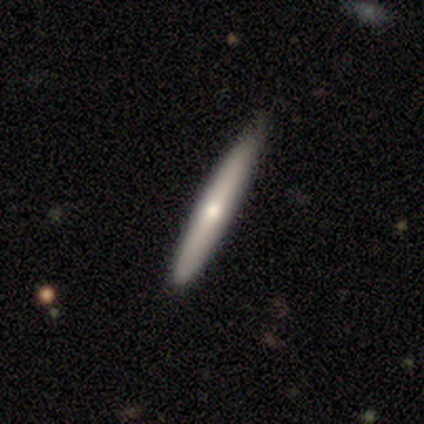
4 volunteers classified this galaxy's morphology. smooth_or_featured: smooth (p=0.50) [tied with: featured or disk p=0.50]
how_rounded: cigar-shaped (p=1.00)
merging: none (p=1.00)